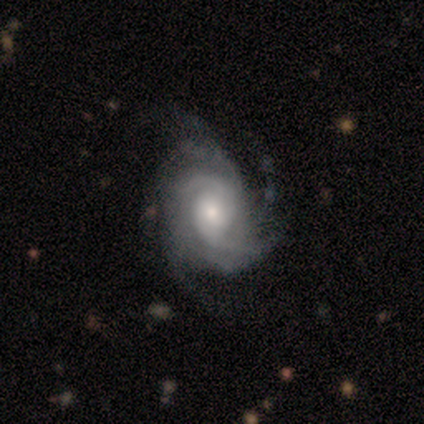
A featured or disk galaxy (100%) with no bar (80%), 4 (60%) medium (60%) spiral arms (100%) and a small central bulge (60%).

Vote fractions:
- Smooth or featured? featured or disk: 100% / smooth: 0% / star or artifact: 0%
- Edge-on disk? no: 100% / yes: 0%
- Bar? no: 80% / weak: 20% / strong: 0%
- Spiral arms? yes: 100% / no: 0%
- Spiral winding? medium: 60% / tight: 40% / loose: 0%
- Spiral arm count? 4: 60% / more than 4: 40% / 1: 0% / 2: 0% / 3: 0% / can't tell: 0%
- Bulge size? small: 60% / moderate: 40% / dominant: 0% / large: 0% / none: 0%
- Merging? none: 80% / major disturbance: 20% / minor disturbance: 0% / merger: 0%